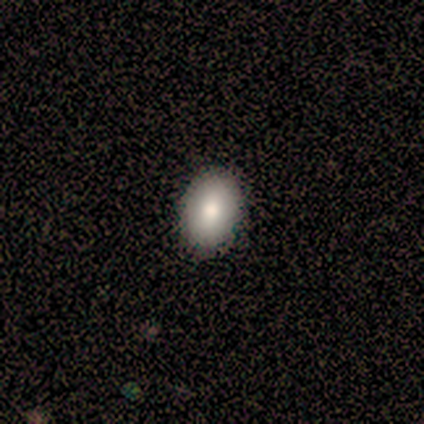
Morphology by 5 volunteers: Q: Smooth or featured?
A: smooth (60%); runner-up: featured or disk (20%)
Q: How rounded?
A: in between (100%)
Q: Merging?
A: none (100%)